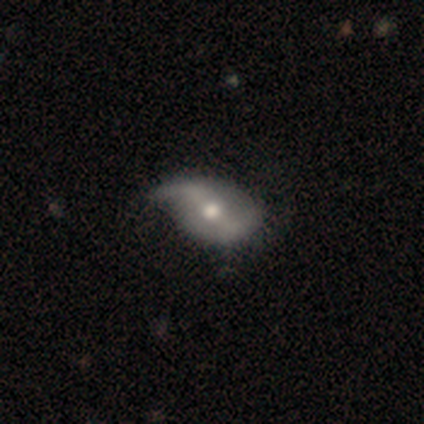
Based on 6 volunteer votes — Smooth or featured? 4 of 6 (67%) said featured or disk. Edge-on disk? 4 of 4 (100%) said no. Bar? 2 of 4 (50%) said weak. Spiral arms? 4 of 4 (100%) said yes. Spiral winding? 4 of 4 (100%) said loose. Spiral arm count? 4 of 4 (100%) said 2. Bulge size? 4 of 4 (100%) said moderate. Merging? 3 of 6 (50%) said none.